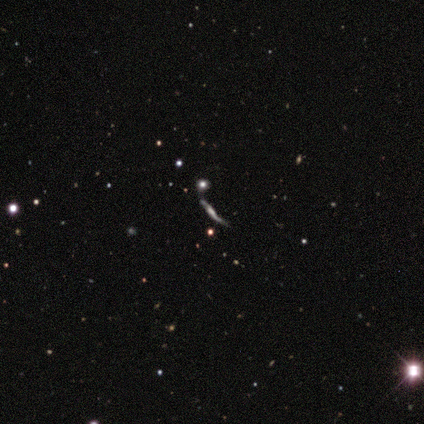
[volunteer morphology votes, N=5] Smooth or featured? featured or disk (40%, tied with star or artifact)
Edge-on disk? yes (50%, tied with no)
Edge-on bulge? boxy (100%)
Merging? none (67%)